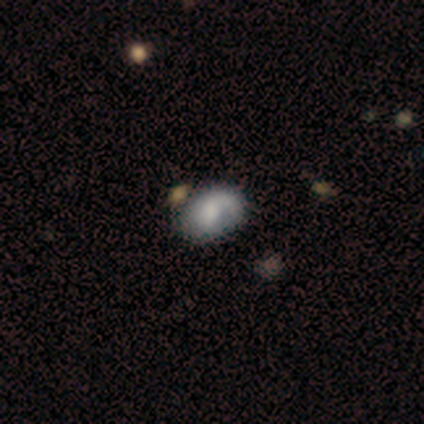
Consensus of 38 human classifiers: A smooth galaxy with no disk features (55%) that is in between round and cigar-shaped (71%). Merging: none (41%).